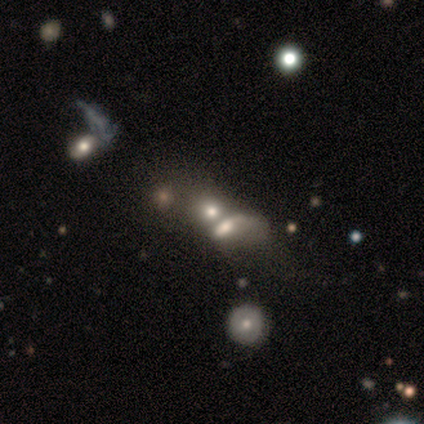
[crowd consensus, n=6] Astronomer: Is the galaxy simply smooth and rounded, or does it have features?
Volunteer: featured or disk — 83%.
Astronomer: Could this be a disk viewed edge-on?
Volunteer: no — 100%.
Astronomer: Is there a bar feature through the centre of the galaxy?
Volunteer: no — 80%.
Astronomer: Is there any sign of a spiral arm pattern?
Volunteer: no — 100%.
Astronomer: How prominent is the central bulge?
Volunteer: large — 60% (runner-up: moderate, 40%).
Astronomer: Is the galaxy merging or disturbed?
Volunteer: merger — 100%.